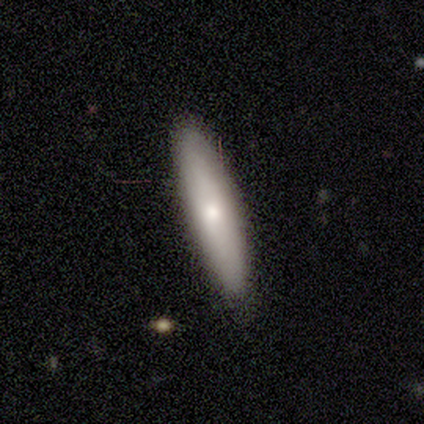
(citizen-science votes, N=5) Smooth or featured? smooth (80%)
How rounded? cigar-shaped (75%)
Merging? none (100%)